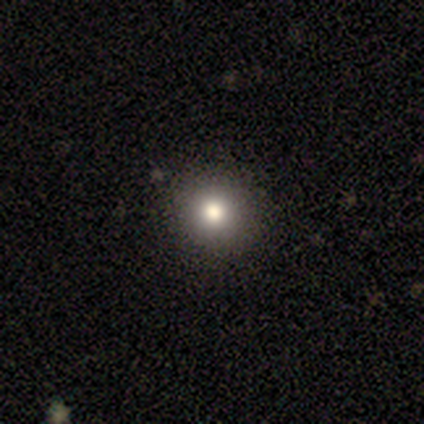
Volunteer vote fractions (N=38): This is clearly a smooth galaxy (89%). How rounded: clearly round (97%). Merging: marginally none (44%).